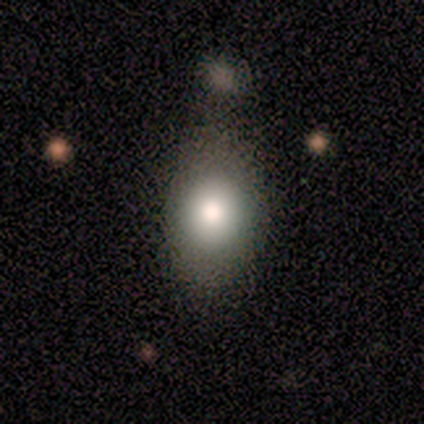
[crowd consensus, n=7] A smooth galaxy with no disk features (71%) that is round (60%). Merging: none (50%, tied with minor disturbance).